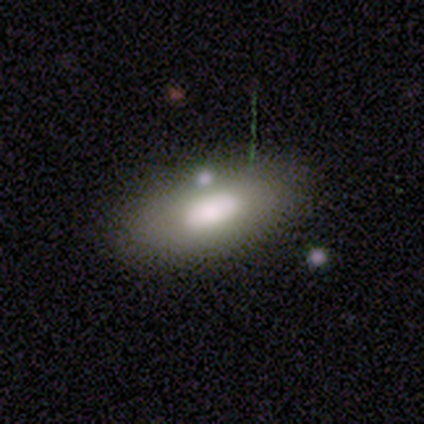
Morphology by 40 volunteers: Volunteers were most divided on "smooth or featured": smooth: 57%, featured or disk: 30%, star or artifact: 12%. More confident: how rounded — in between (91%); merging — none (66%).